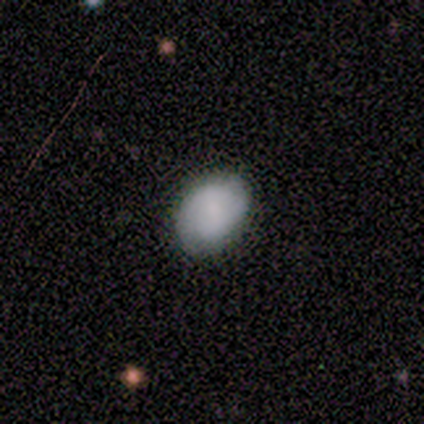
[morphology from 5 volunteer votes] smooth_or_featured: smooth (p=1.00)
how_rounded: in between (p=0.80) [alt: round p=0.20]
merging: none (p=0.80) [alt: minor disturbance p=0.20]